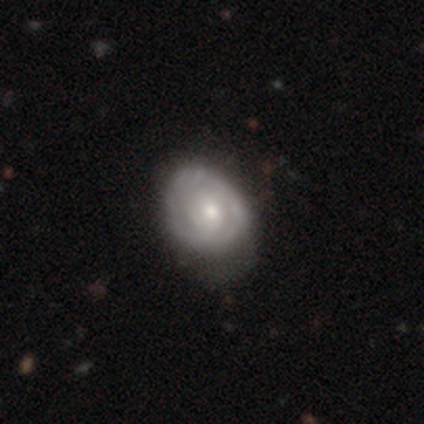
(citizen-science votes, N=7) smooth-or-featured: featured or disk: 100% | smooth: 0% | star or artifact: 0%
  disk-edge-on: no: 100% | yes: 0%
    bar: no: 86% | weak: 14% | strong: 0%
    has-spiral-arms: yes: 71% | no: 29%
      spiral-winding: tight: 100% | medium: 0% | loose: 0%
      spiral-arm-count: 2: 80% | can't tell: 20% | 1: 0% | 3: 0% | 4: 0% | more than 4: 0%
    bulge-size: moderate: 57% | small: 29% | large: 14% | dominant: 0% | none: 0%
  merging: minor disturbance: 71% | none: 29% | major disturbance: 0% | merger: 0%